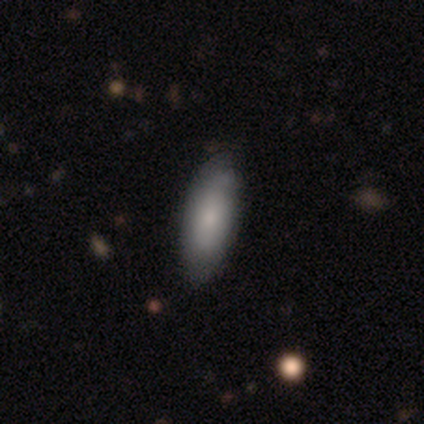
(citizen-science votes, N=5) Smooth or featured?
  - smooth: 80% *
  - featured or disk: 20%
  - star or artifact: 0%
How rounded?
  - in between: 50% * (tied)
  - cigar-shaped: 50% * (tied)
  - round: 0%
Merging?
  - none: 80% *
  - minor disturbance: 20%
  - major disturbance: 0%
  - merger: 0%